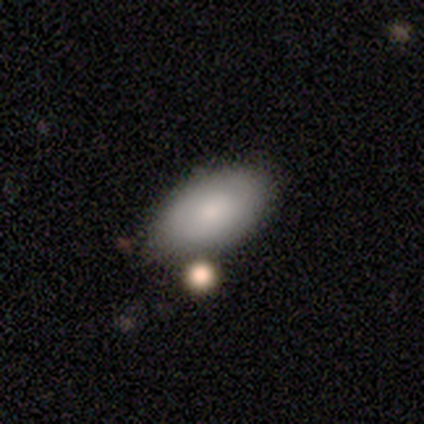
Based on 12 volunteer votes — smooth-or-featured: smooth: 83% | featured or disk: 17% | star or artifact: 0%
  how-rounded: in between: 100% | round: 0% | cigar-shaped: 0%
  merging: none: 42% (tied) | minor disturbance: 42% (tied) | merger: 17% | major disturbance: 0%